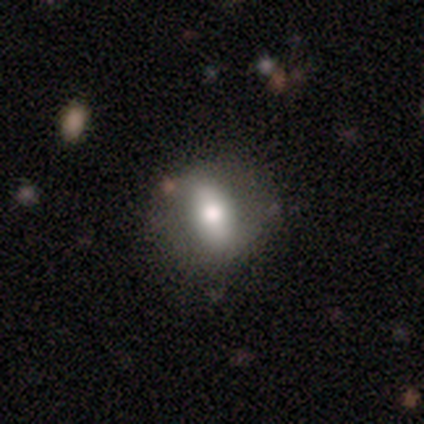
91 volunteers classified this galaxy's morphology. type=smooth (65%); roundness=in between (63%); merging=none (70%).